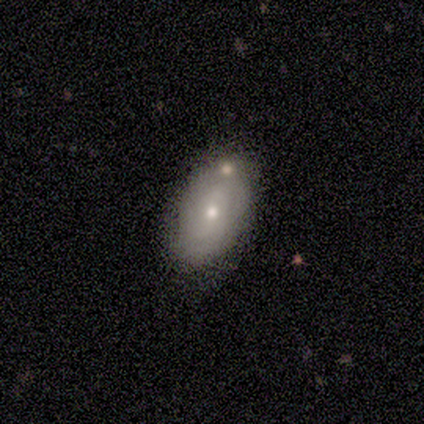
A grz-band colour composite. It shows a smooth galaxy with no disk features (57%) that is in between round and cigar-shaped (100%). Merging: none (71%).